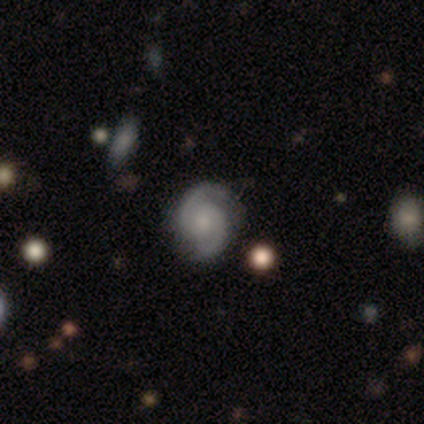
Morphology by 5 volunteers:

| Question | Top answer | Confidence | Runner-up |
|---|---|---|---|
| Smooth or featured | featured or disk | 80% | star or artifact (20%) |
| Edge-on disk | no | 100% | — |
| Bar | no | 75% | weak (25%) |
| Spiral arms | yes | 100% | — |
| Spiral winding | tight | 50% | medium (25%) |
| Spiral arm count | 2 | 100% | — |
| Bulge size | small | 75% | moderate (25%) |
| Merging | none | 50% | tied: minor disturbance (50%) |